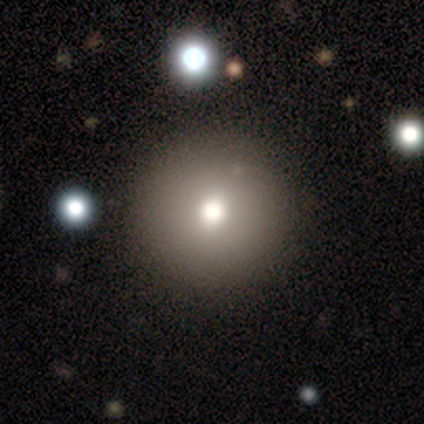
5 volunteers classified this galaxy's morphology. smooth_or_featured: smooth (p=0.60) [alt: featured or disk p=0.20]
how_rounded: round (p=1.00)
merging: none (p=0.75) [alt: minor disturbance p=0.25]